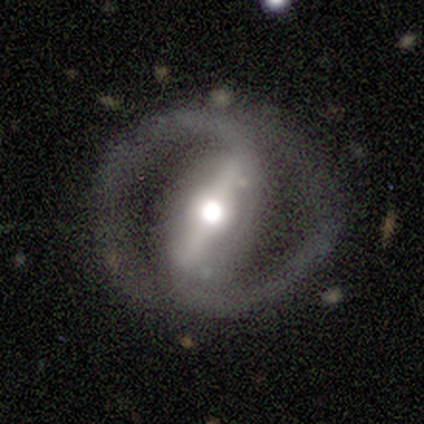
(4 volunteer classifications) Q: Smooth or featured?
A: featured or disk (100%)
Q: Edge-on disk?
A: no (75%); runner-up: yes (25%)
Q: Bar?
A: strong (100%)
Q: Spiral arms?
A: yes (67%); runner-up: no (33%)
Q: Spiral winding?
A: tight (50%); tied with: medium (50%)
Q: Spiral arm count?
A: 2 (100%)
Q: Bulge size?
A: moderate (100%)
Q: Merging?
A: none (75%); runner-up: minor disturbance (25%)